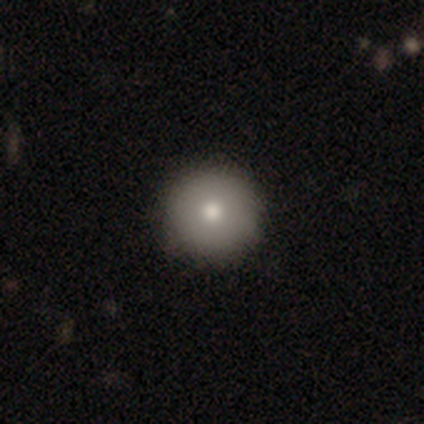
Overall: smooth (60%; featured or disk 20%). How rounded: round (100%). Merging: none (100%).